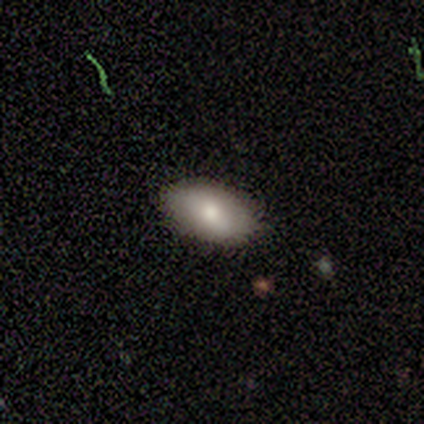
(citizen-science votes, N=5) Smooth or featured? smooth (60%)
How rounded? in between (100%)
Merging? none (100%)